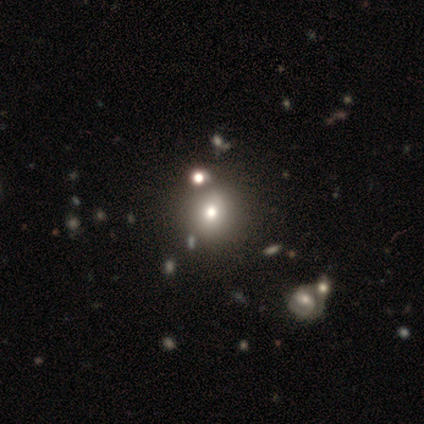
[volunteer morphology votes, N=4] This appears to be a smooth galaxy with no disk features (50%, tied with featured or disk) that is round (100%). Merging: none (75%).